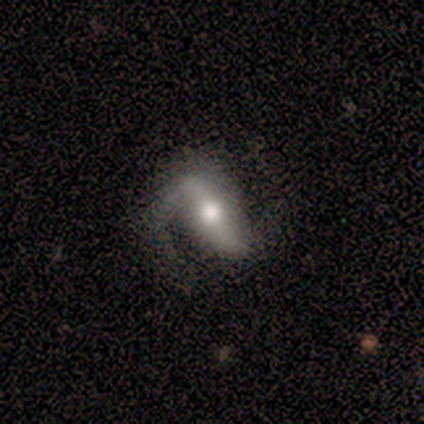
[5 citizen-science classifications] Q: Smooth or featured?
A: featured or disk (60%); runner-up: smooth (40%)
Q: Edge-on disk?
A: no (100%)
Q: Bar?
A: strong (100%)
Q: Spiral arms?
A: yes (100%)
Q: Spiral winding?
A: medium (67%); runner-up: loose (33%)
Q: Spiral arm count?
A: 2 (100%)
Q: Bulge size?
A: moderate (67%); runner-up: large (33%)
Q: Merging?
A: none (60%); runner-up: minor disturbance (40%)